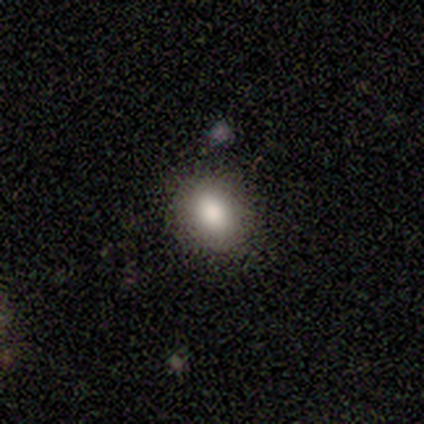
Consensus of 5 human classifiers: smooth 100%, featured or disk 0%, star or artifact 0%. Down the decision tree: how rounded — round (60%); merging — none (60%).